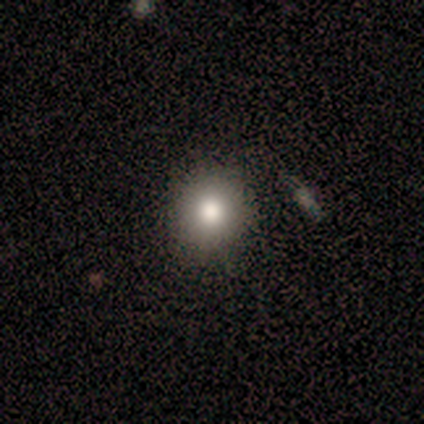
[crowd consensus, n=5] Overall: smooth (100%). How rounded: round (80%). Merging: none (80%).